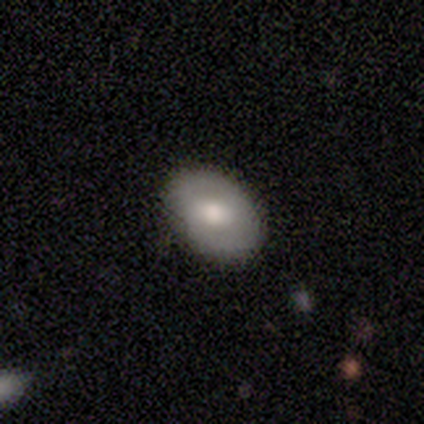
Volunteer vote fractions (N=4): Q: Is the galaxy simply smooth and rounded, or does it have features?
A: featured or disk — 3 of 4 (75%).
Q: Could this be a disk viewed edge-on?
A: no — 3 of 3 (100%).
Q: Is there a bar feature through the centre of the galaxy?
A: weak — 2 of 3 (67%).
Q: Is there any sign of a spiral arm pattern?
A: no — 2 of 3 (67%).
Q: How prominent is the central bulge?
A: moderate — 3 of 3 (100%).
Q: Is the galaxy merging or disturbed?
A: none — 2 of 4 (50%, tied with minor disturbance).